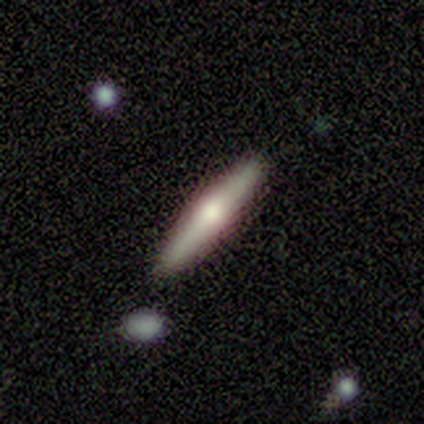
Morphology: type=smooth (60%); roundness=cigar-shaped (67%); merging=none (80%).